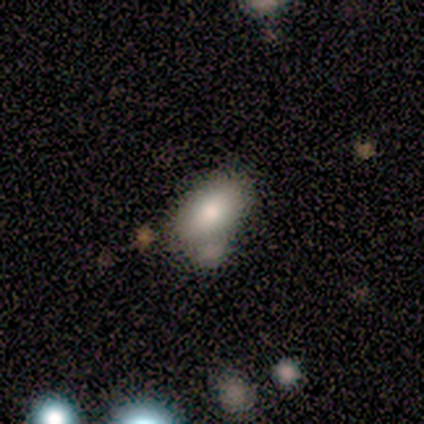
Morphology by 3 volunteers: Smooth or featured? 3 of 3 (100%) said smooth. How rounded? 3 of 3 (100%) said in between. Merging? 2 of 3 (67%) said minor disturbance.